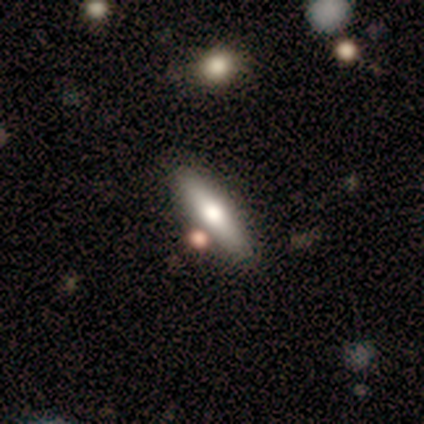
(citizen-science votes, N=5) Morphology: type=smooth (60%); roundness=cigar-shaped (100%); merging=none (100%).